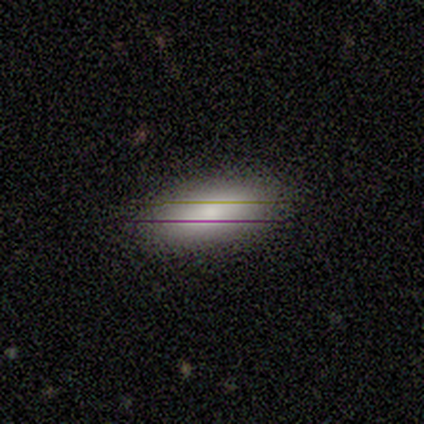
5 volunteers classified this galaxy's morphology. Volunteers were most divided on "how rounded": in between: 80%, cigar-shaped: 20%, round: 0%. More confident: smooth or featured — smooth (100%); merging — none (100%).